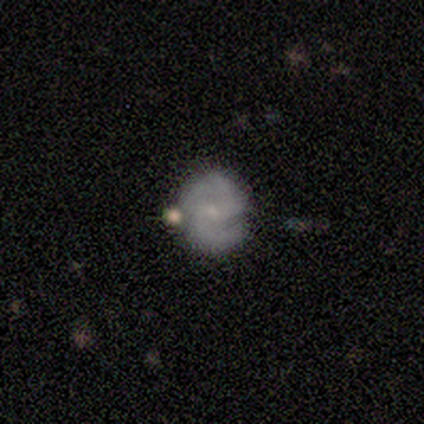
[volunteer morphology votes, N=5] Volunteers were most divided on "smooth or featured": featured or disk: 60%, smooth: 40%, star or artifact: 0%. More confident: edge-on disk — no (100%); spiral arms — yes (100%); spiral arm count — 2 (100%); bulge size — small (100%); merging — none (80%); bar — no (67%); spiral winding — medium (67%).